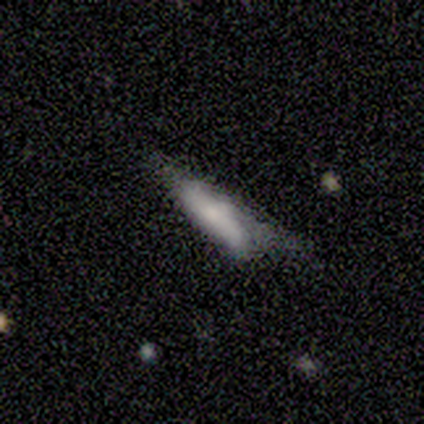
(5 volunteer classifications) Smooth or featured: featured or disk — 60% (smooth — 20%)
Edge-on disk: yes — 67% (no — 33%)
Edge-on bulge: rounded — 100%
Merging: none — 50% (tied with major disturbance — 50%)